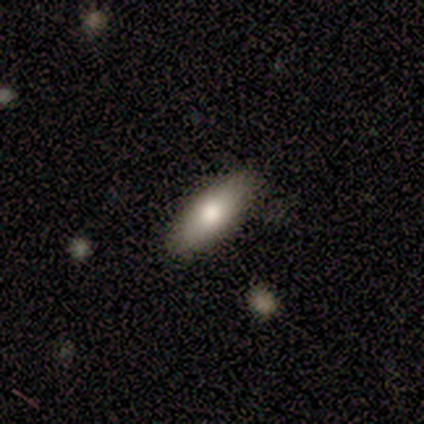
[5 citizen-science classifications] Volunteers were most divided on "how rounded": cigar-shaped: 67%, in between: 33%, round: 0%. More confident: merging — none (100%); smooth or featured — smooth (60%).